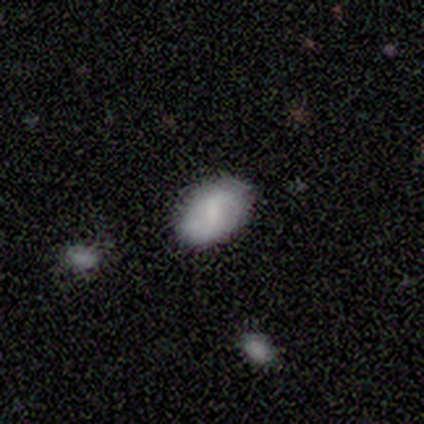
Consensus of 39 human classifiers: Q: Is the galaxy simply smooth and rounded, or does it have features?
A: smooth — 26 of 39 (67%).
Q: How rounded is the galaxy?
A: in between — 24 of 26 (92%).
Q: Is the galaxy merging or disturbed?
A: none — 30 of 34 (88%).